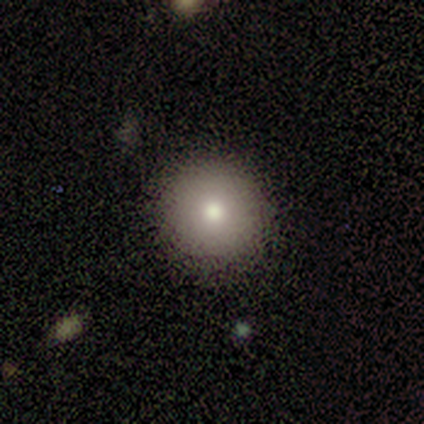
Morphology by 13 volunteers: A smooth galaxy with no disk features (100%) that is round (100%).

Vote fractions:
- Smooth or featured? smooth: 100% / featured or disk: 0% / star or artifact: 0%
- How rounded? round: 100% / in between: 0% / cigar-shaped: 0%
- Merging? none: 69% / minor disturbance: 23% / major disturbance: 8% / merger: 0%